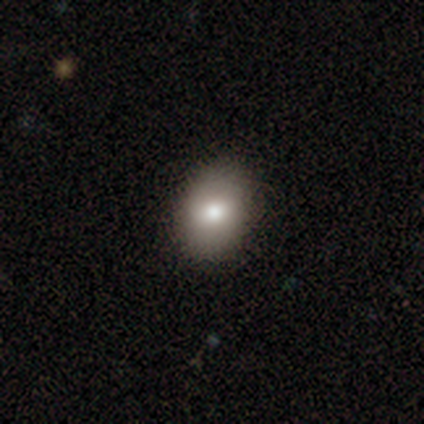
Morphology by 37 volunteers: type=smooth (86%); roundness=in between (53%); merging=none (83%).